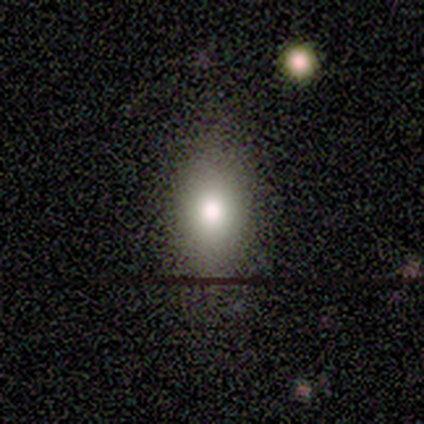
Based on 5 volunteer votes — Smooth or featured: smooth — 60% (star or artifact — 40%)
How rounded: in between — 67% (round — 33%)
Merging: none — 67% (minor disturbance — 33%)